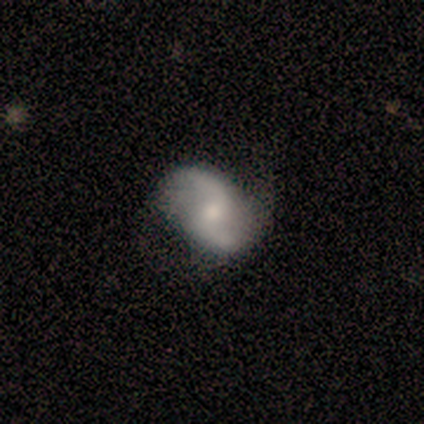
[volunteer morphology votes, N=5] Smooth or featured? 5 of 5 (100%) said featured or disk. Edge-on disk? 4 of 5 (80%) said no. Bar? 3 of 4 (75%) said weak. Spiral arms? 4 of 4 (100%) said yes. Spiral winding? 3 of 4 (75%) said loose. Spiral arm count? 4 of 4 (100%) said 2. Bulge size? 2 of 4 (50%, tied with small) said moderate. Merging? 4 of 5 (80%) said none.